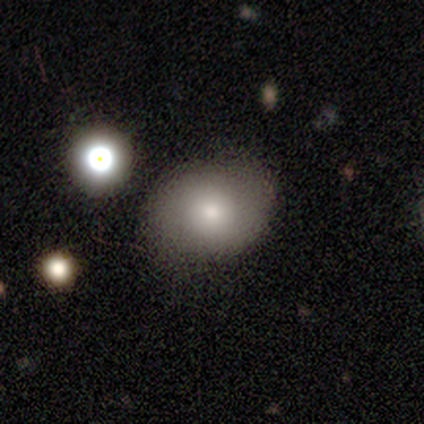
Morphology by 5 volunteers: Overall: smooth (80%). How rounded: round (50%, tied with in between). Merging: none (80%).